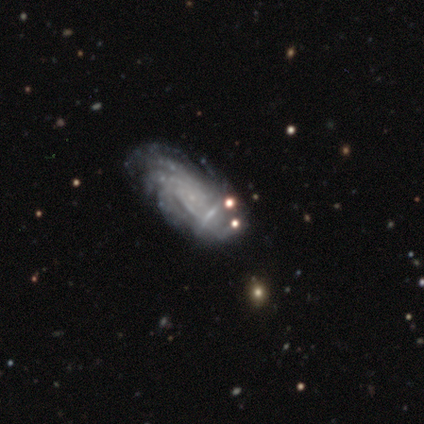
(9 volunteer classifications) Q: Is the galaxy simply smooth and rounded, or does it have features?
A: featured or disk — 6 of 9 (67%).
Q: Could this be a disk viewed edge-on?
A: no — 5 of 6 (83%).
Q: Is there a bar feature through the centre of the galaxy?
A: no — 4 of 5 (80%).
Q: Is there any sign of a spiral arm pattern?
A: yes — 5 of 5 (100%).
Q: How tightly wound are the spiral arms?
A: tight — 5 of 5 (100%).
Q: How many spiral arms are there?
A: more than 4 — 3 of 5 (60%).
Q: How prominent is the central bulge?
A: none — 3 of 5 (60%).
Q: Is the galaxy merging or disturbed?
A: none — 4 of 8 (50%, tied with minor disturbance).